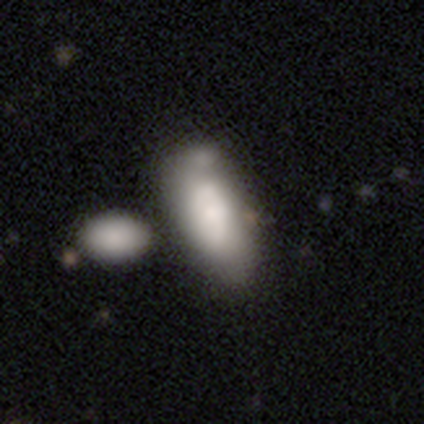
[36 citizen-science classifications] Smooth or featured? 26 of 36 (72%) said smooth. How rounded? 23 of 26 (88%) said in between. Merging? 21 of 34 (62%) said merger.